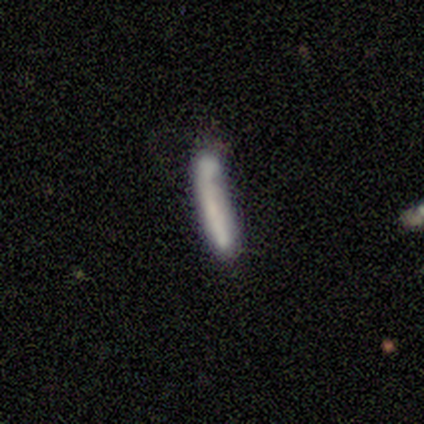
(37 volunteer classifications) smooth-or-featured: smooth: 78% | featured or disk: 19% | star or artifact: 3%
  how-rounded: cigar-shaped: 100% | round: 0% | in between: 0%
  merging: none: 53% | merger: 28% | minor disturbance: 17% | major disturbance: 3%